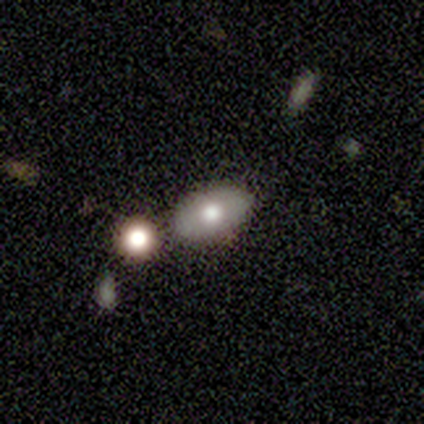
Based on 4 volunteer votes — Smooth or featured?
  - smooth: 50% * (tied)
  - featured or disk: 50% * (tied)
  - star or artifact: 0%
How rounded?
  - in between: 100% *
  - round: 0%
  - cigar-shaped: 0%
Merging?
  - none: 75% *
  - major disturbance: 25%
  - minor disturbance: 0%
  - merger: 0%